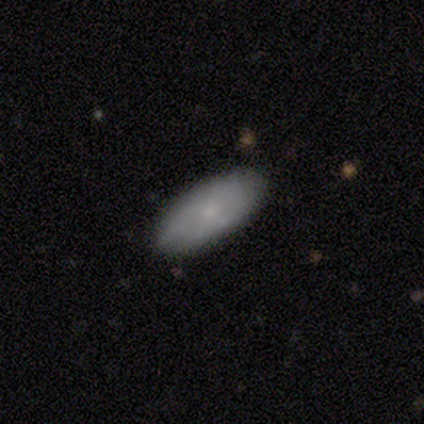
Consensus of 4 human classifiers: smooth_or_featured: smooth (p=0.75) [alt: featured or disk p=0.25]
how_rounded: in between (p=1.00)
merging: none (p=1.00)